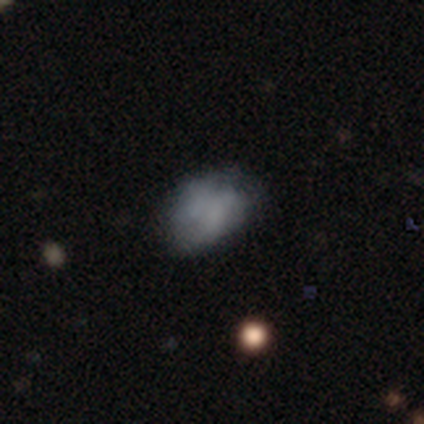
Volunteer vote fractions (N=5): smooth-or-featured: smooth: 80% | featured or disk: 20% | star or artifact: 0%
  how-rounded: in between: 100% | round: 0% | cigar-shaped: 0%
  merging: none: 60% | minor disturbance: 20% | major disturbance: 20% | merger: 0%